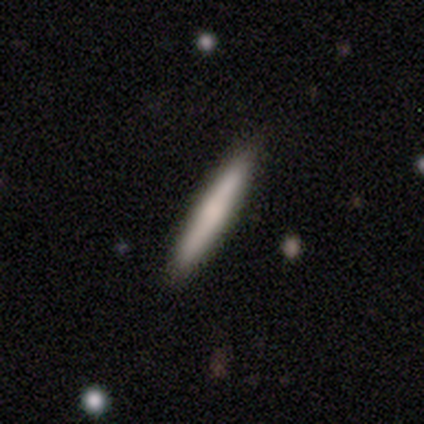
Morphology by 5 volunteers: Smooth or featured: featured or disk — 80% (smooth — 20%)
Edge-on disk: yes — 100%
Edge-on bulge: none — 75% (rounded — 25%)
Merging: none — 100%